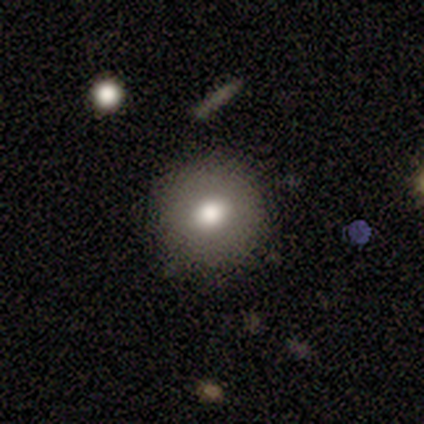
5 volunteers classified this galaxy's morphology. This is clearly a smooth galaxy (80%). How rounded: likely round (75%). Merging: clearly none (100%).